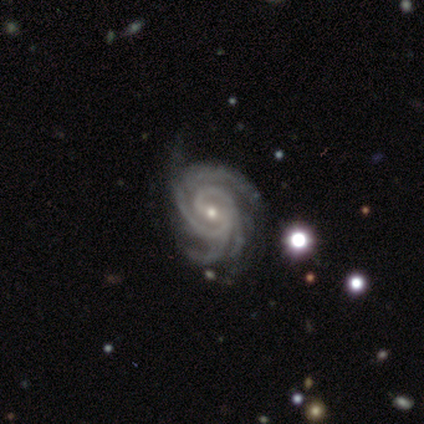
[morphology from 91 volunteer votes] Overall: featured or disk (95%). Edge-on disk: no (100%). Bar: weak (50%; no 29%). Spiral arms: yes (100%). Spiral arm count: 4 (49%; 3 16%). Spiral winding: tight (70%). Bulge size: small (70%). Merging: none (68%).